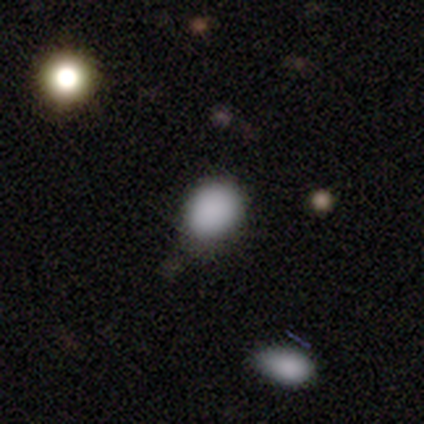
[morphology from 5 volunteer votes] Overall: smooth (80%). How rounded: in between (75%). Merging: none (50%, tied with minor disturbance).